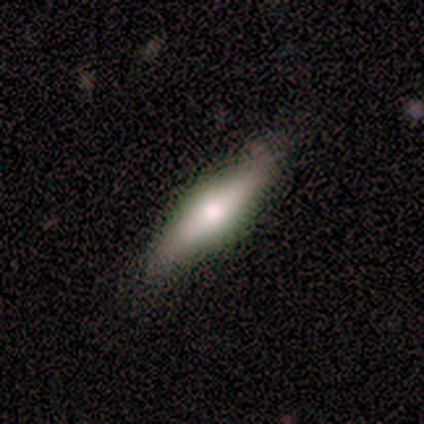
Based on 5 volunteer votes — smooth_or_featured: smooth (p=0.60) [alt: featured or disk p=0.20]
how_rounded: cigar-shaped (p=0.67) [alt: in between p=0.33]
merging: none (p=0.75) [alt: major disturbance p=0.25]